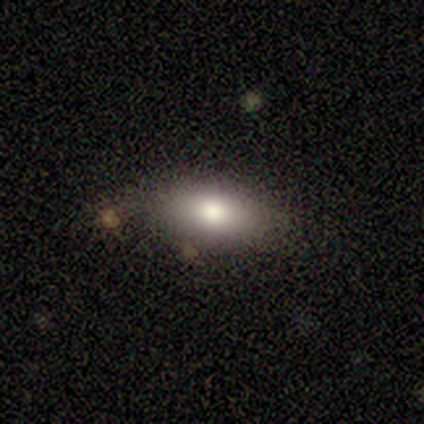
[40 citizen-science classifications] This appears to be a smooth galaxy with no disk features (78%) that is in between round and cigar-shaped (97%). Merging: none (82%).